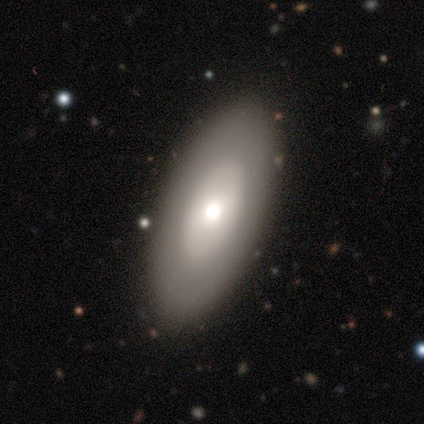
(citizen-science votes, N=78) smooth_or_featured: featured or disk (p=0.49) [alt: smooth p=0.47]
disk_edge_on: no (p=0.82) [alt: yes p=0.18]
bar: no (p=0.87) [alt: weak p=0.10]
has_spiral_arms: no (p=0.87) [alt: yes p=0.13]
bulge_size: moderate (p=0.55) [alt: large p=0.26]
merging: none (p=0.43) [alt: major disturbance p=0.04]